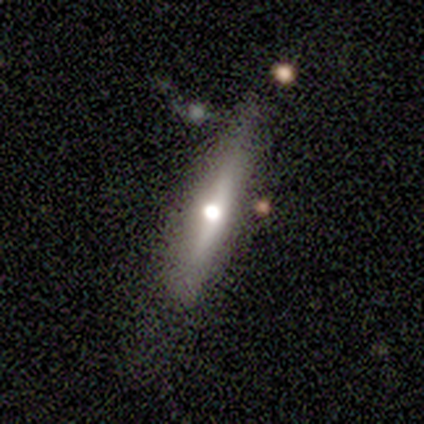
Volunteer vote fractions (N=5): This is clearly a featured or disk galaxy (80%). It is possibly viewed edge-on (50%, tied with no). Edge-on bulge: clearly rounded (100%). Merging: clearly none (80%).